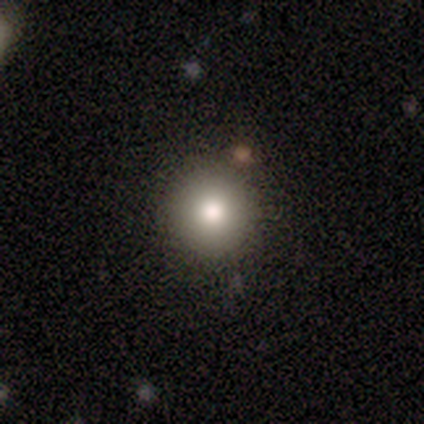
Smooth or featured?
  - smooth: 80% *
  - featured or disk: 20%
  - star or artifact: 0%
How rounded?
  - round: 100% *
  - in between: 0%
  - cigar-shaped: 0%
Merging?
  - none: 80% *
  - minor disturbance: 10%
  - merger: 10%
  - major disturbance: 0%